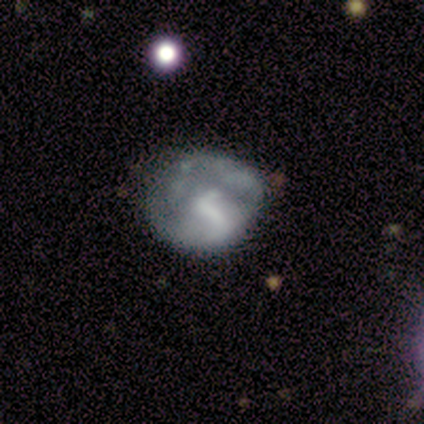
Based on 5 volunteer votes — A smooth galaxy with no disk features (60%) that is round (100%).

Vote fractions:
- Smooth or featured? smooth: 60% / featured or disk: 40% / star or artifact: 0%
- How rounded? round: 100% / in between: 0% / cigar-shaped: 0%
- Merging? none: 60% / minor disturbance: 40% / major disturbance: 0% / merger: 0%